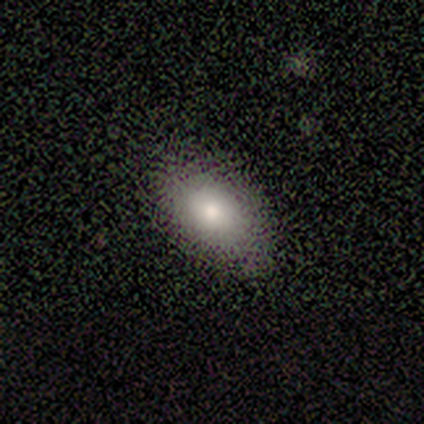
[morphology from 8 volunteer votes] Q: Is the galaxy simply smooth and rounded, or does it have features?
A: smooth — 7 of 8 (88%).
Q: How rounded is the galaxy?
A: in between — 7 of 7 (100%).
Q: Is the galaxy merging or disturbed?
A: none — 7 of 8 (88%).